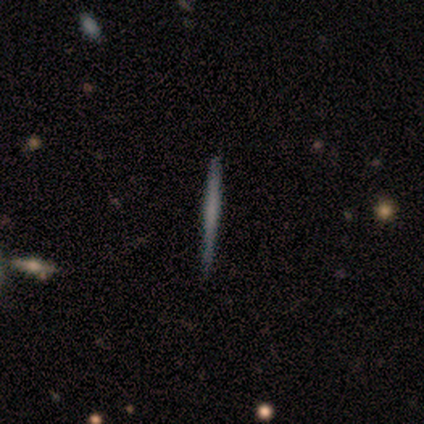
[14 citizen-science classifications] This is possibly a smooth galaxy (50%). How rounded: clearly cigar-shaped (100%). Merging: clearly none (92%).